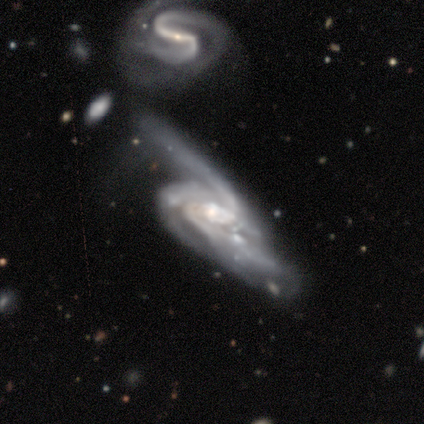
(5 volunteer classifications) Smooth or featured: featured or disk — 100%
Edge-on disk: no — 100%
Bar: strong — 40% (tied with no — 40%)
Spiral arms: yes — 80% (no — 20%)
Spiral winding: medium — 75% (loose — 25%)
Spiral arm count: 2 — 50% (3 — 25%)
Bulge size: moderate — 80% (none — 20%)
Merging: merger — 40% (none — 20%)